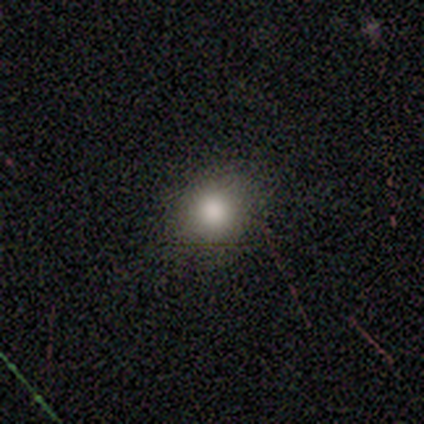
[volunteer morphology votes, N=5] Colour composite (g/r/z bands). It shows a smooth galaxy with no disk features (60%) that is round (100%). Merging: none (80%).